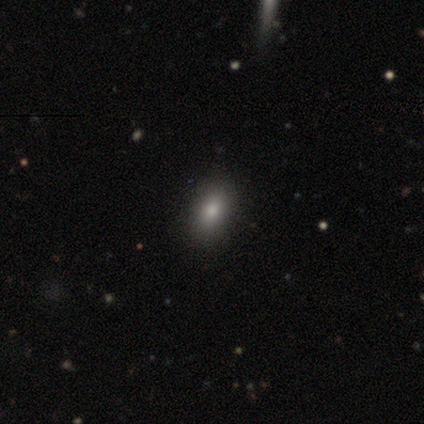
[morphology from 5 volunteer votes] smooth 80%, star or artifact 20%, featured or disk 0%. Down the decision tree: how rounded — in between (100%); merging — none (100%).